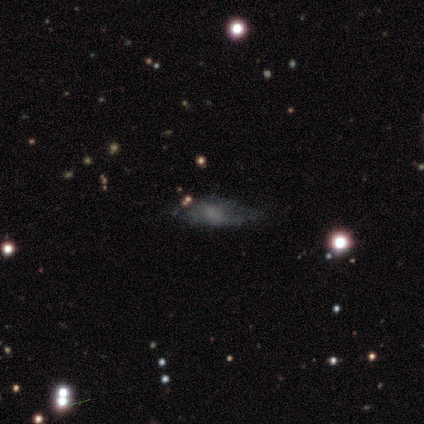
smooth-or-featured: smooth: 50% (tied) | featured or disk: 50% (tied) | star or artifact: 0%
  how-rounded: in between: 50% (tied) | cigar-shaped: 50% (tied) | round: 0%
  merging: major disturbance: 50% | none: 25% | minor disturbance: 25% | merger: 0%